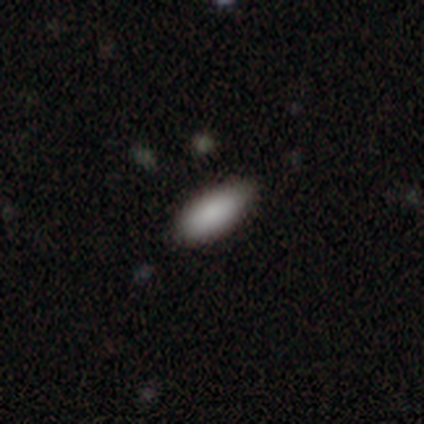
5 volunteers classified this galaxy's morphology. smooth_or_featured: smooth (p=1.00)
how_rounded: in between (p=0.60) [alt: cigar-shaped p=0.40]
merging: none (p=0.80) [alt: minor disturbance p=0.20]